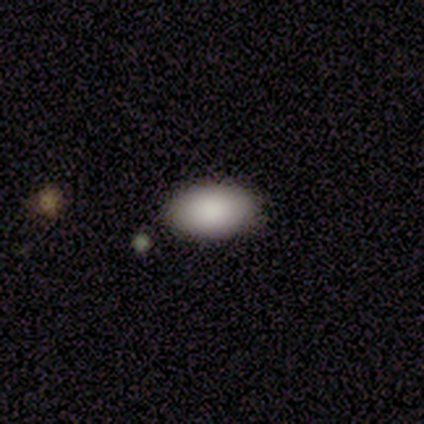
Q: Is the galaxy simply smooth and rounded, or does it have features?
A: smooth — 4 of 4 (100%).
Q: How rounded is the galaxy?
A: in between — 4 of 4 (100%).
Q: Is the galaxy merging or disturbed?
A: none — 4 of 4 (100%).